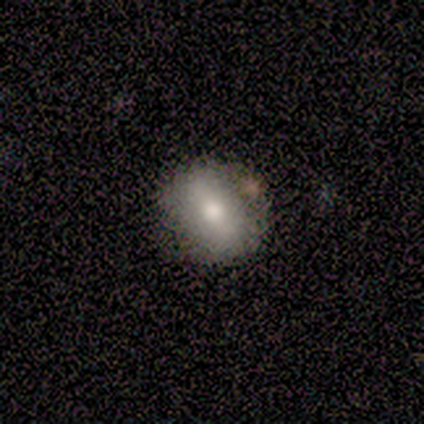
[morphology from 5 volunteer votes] Smooth or featured?
  - smooth: 60% *
  - featured or disk: 40%
  - star or artifact: 0%
How rounded?
  - round: 67% *
  - in between: 33%
  - cigar-shaped: 0%
Merging?
  - none: 80% *
  - minor disturbance: 20%
  - major disturbance: 0%
  - merger: 0%